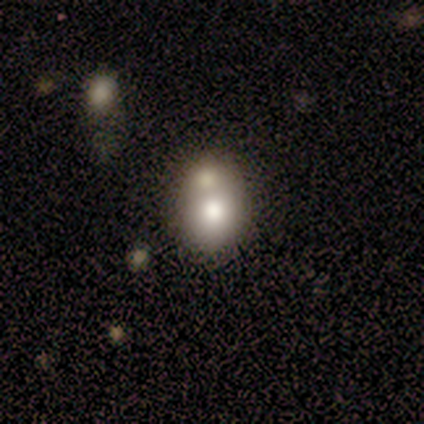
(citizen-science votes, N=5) Q: Smooth or featured?
A: smooth (40%); tied with: featured or disk (40%)
Q: How rounded?
A: round (100%)
Q: Merging?
A: merger (50%); runner-up: none (25%)